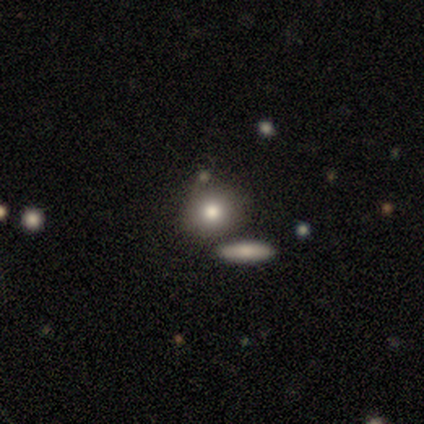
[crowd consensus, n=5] Overall: smooth (80%). How rounded: round (75%). Merging: none (80%).